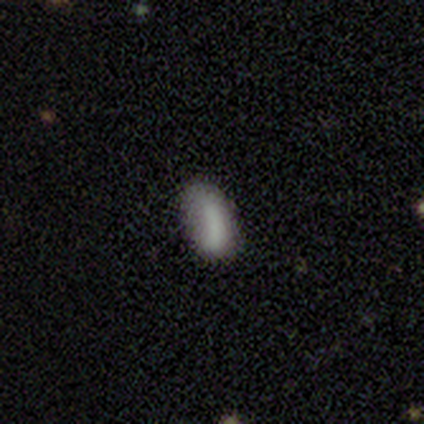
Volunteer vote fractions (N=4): Overall: smooth (75%). How rounded: in between (100%). Merging: minor disturbance (67%; none 33%).